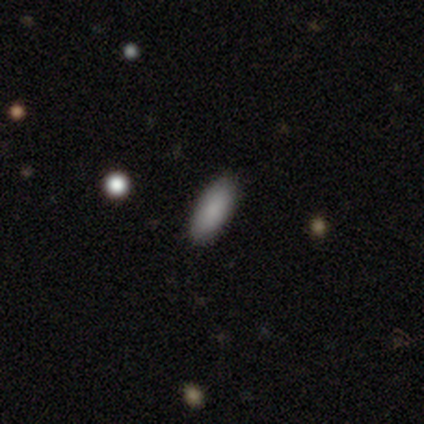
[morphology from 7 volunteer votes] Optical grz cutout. It shows a smooth galaxy with no disk features (86%) that is in between round and cigar-shaped (83%). Merging: none (100%).